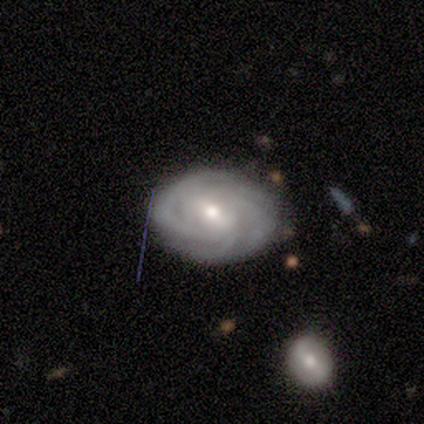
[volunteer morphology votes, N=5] Volunteers were most divided on "merging": none: 60%, minor disturbance: 40%, major disturbance: 0%, merger: 0%. More confident: smooth or featured — featured or disk (100%); edge-on disk — no (100%); bar — weak (100%); spiral arms — yes (100%); spiral winding — tight (100%); spiral arm count — 4 (80%); bulge size — moderate (60%).